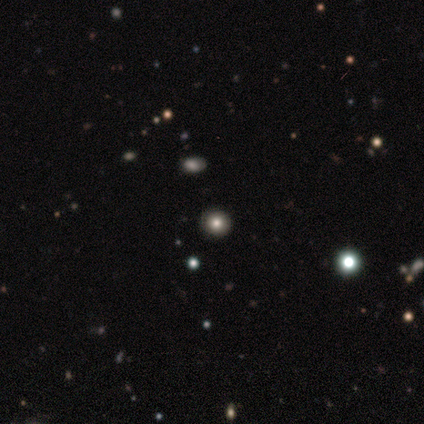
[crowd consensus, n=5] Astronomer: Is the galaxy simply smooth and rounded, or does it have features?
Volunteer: smooth — 60%.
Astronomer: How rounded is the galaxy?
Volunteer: round — 100%.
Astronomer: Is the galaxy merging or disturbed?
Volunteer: none — 100%.